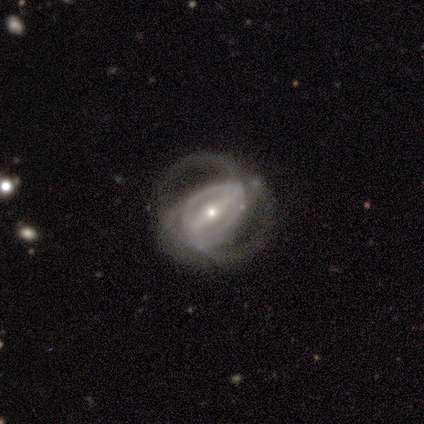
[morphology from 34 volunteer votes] smooth_or_featured: featured or disk (p=0.94) [alt: star or artifact p=0.06]
disk_edge_on: no (p=0.97) [alt: yes p=0.03]
bar: strong (p=0.74) [alt: weak p=0.23]
has_spiral_arms: yes (p=0.87) [alt: no p=0.13]
spiral_winding: medium (p=0.48) [alt: loose p=0.30]
spiral_arm_count: 2 (p=0.52) [alt: can't tell p=0.30]
bulge_size: small (p=0.74) [alt: moderate p=0.23]
merging: none (p=0.72) [alt: minor disturbance p=0.12]